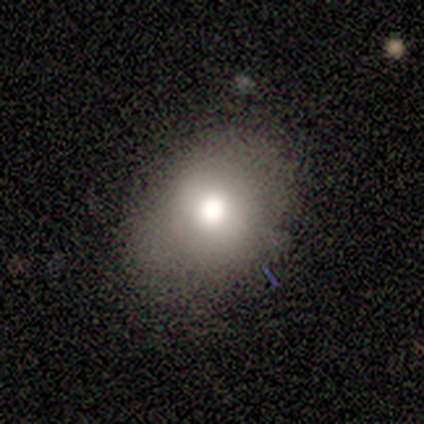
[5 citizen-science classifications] This is likely a smooth galaxy (60%). How rounded: clearly in between (100%). Merging: clearly none (100%).